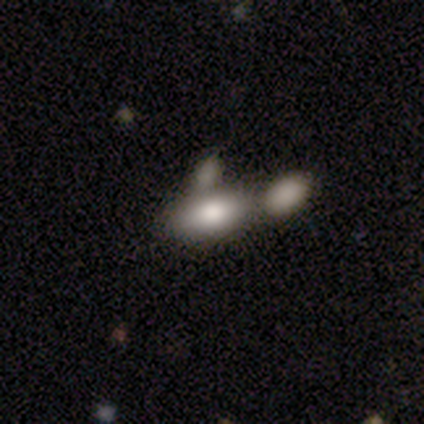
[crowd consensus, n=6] Overall: smooth (67%). How rounded: in between (75%). Merging: none (100%).